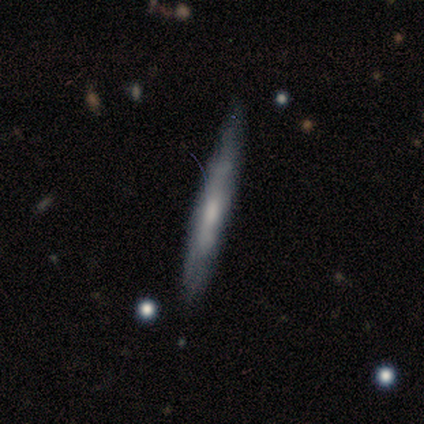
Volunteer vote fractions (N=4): A featured or disk galaxy (75%) viewed edge-on (100%) with no central bulge (67%). Merging: none (75%).